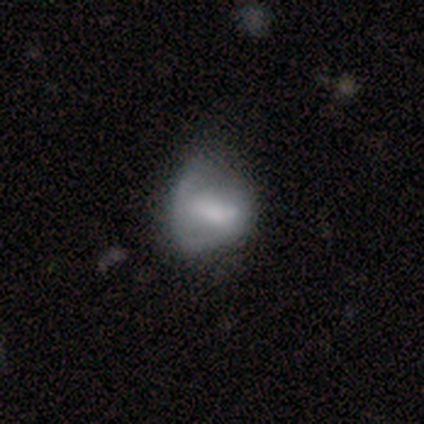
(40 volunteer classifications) A smooth galaxy with no disk features (52%) that is in between round and cigar-shaped (52%).

Vote fractions:
- Smooth or featured? smooth: 52% / featured or disk: 40% / star or artifact: 8%
- How rounded? in between: 52% / round: 43% / cigar-shaped: 5%
- Merging? none: 30% / minor disturbance: 16% / major disturbance: 14% / merger: 3%